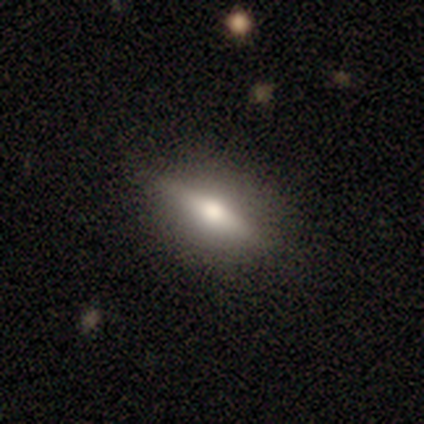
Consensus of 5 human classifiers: Overall: featured or disk (80%). Edge-on disk: yes (75%). Edge-on bulge: rounded (100%). Merging: none (100%).